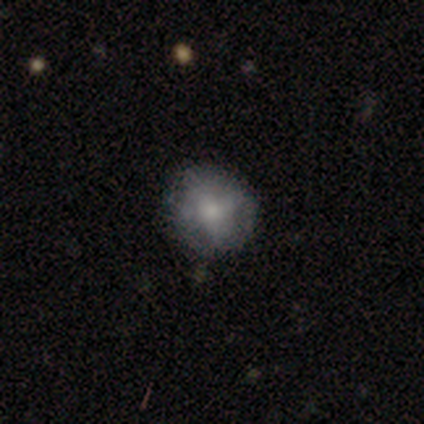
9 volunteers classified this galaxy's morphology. Q: Smooth or featured?
A: smooth (44%); tied with: featured or disk (44%)
Q: How rounded?
A: round (100%)
Q: Merging?
A: none (88%); runner-up: minor disturbance (12%)